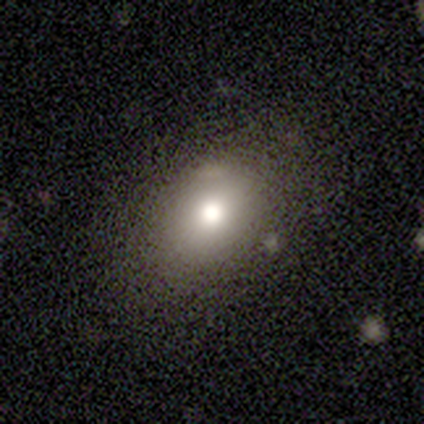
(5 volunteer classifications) smooth_or_featured: smooth (p=0.80) [alt: featured or disk p=0.20]
how_rounded: round (p=0.50) [tied with: in between p=0.50]
merging: none (p=1.00)